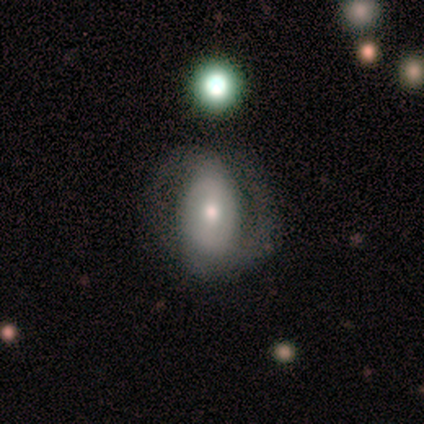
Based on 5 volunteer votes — Smooth or featured: featured or disk — 60% (smooth — 40%)
Edge-on disk: no — 100%
Bar: weak — 100%
Spiral arms: yes — 100%
Spiral winding: medium — 100%
Spiral arm count: 2 — 100%
Bulge size: moderate — 67% (small — 33%)
Merging: none — 80% (minor disturbance — 20%)